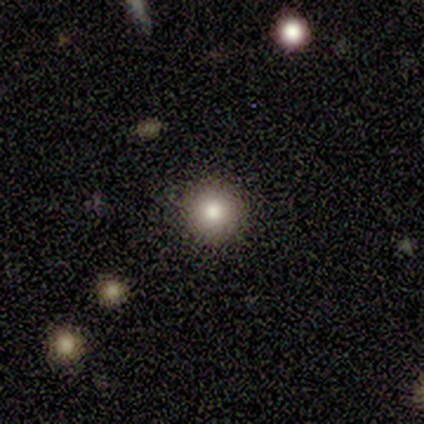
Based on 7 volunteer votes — A smooth galaxy with no disk features (86%) that is round (100%).

Vote fractions:
- Smooth or featured? smooth: 86% / featured or disk: 14% / star or artifact: 0%
- How rounded? round: 100% / in between: 0% / cigar-shaped: 0%
- Merging? none: 100% / minor disturbance: 0% / major disturbance: 0% / merger: 0%